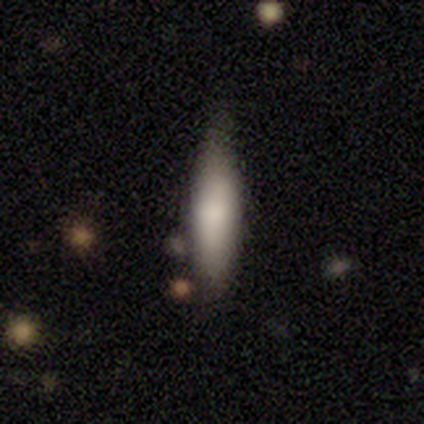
Smooth or featured? smooth (60%)
How rounded? cigar-shaped (100%)
Merging? none (100%)